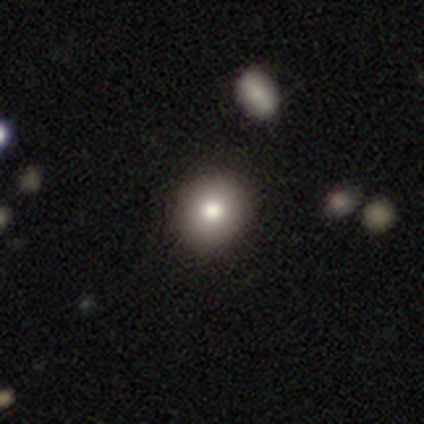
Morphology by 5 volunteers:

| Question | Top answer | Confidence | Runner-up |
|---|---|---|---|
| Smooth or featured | smooth | 80% | featured or disk (20%) |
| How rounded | round | 75% | in between (25%) |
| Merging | none | 60% | minor disturbance (20%) |